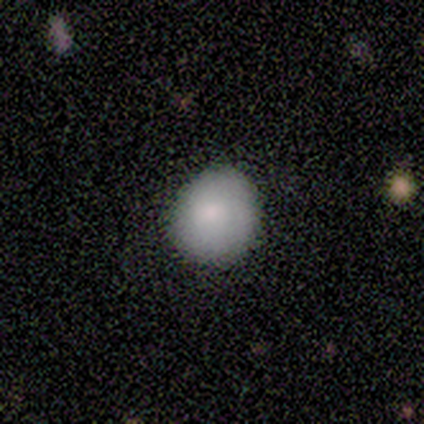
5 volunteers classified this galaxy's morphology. Smooth or featured? 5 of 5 (100%) said smooth. How rounded? 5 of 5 (100%) said round. Merging? 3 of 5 (60%) said none.